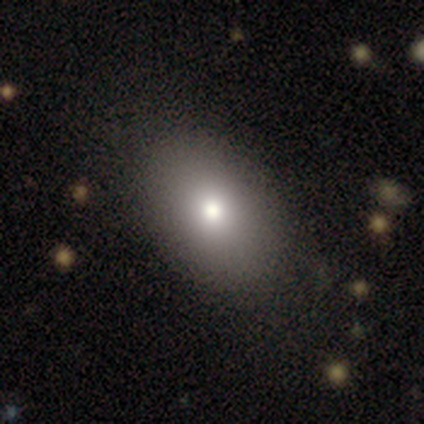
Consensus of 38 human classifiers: This appears to be a smooth galaxy with no disk features (87%) that is in between round and cigar-shaped (94%). Merging: none (66%).